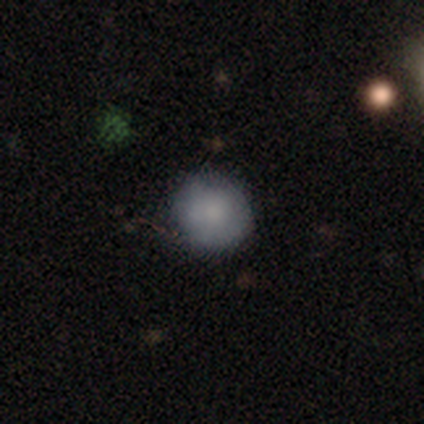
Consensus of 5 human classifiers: smooth 80%, featured or disk 20%, star or artifact 0%. Down the decision tree: how rounded — round (100%); merging — none (60%).